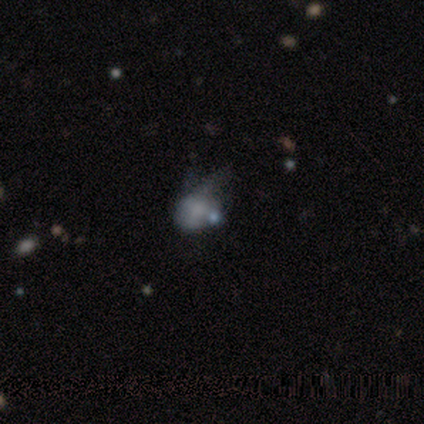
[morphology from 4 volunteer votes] Smooth or featured? 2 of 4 (50%) said smooth. How rounded? 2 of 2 (100%) said round. Merging? 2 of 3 (67%) said minor disturbance.